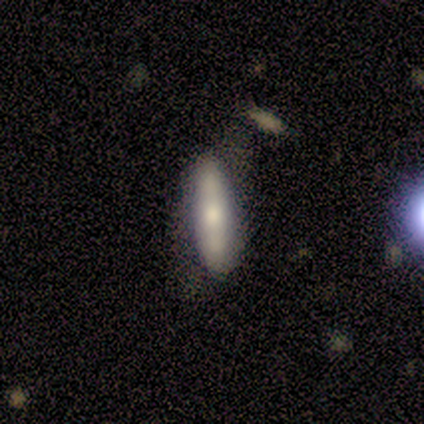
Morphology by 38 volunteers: A smooth galaxy with no disk features (58%) that is cigar-shaped (73%).

Vote fractions:
- Smooth or featured? smooth: 58% / featured or disk: 37% / star or artifact: 5%
- How rounded? cigar-shaped: 73% / in between: 27% / round: 0%
- Merging? none: 81% / minor disturbance: 14% / major disturbance: 6% / merger: 0%